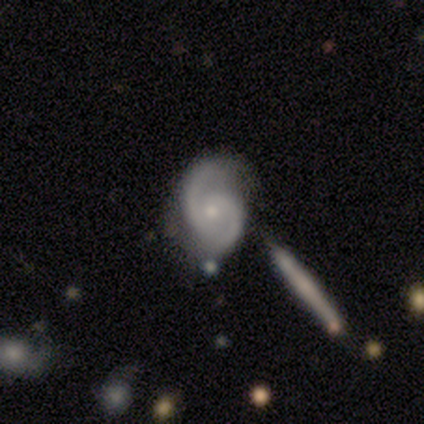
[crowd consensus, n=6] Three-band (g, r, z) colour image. It shows a featured or disk galaxy (100%) with no bar (67%), 2 (100%) medium (50%) spiral arms (100%) and a small central bulge (83%). Merging: none (67%).